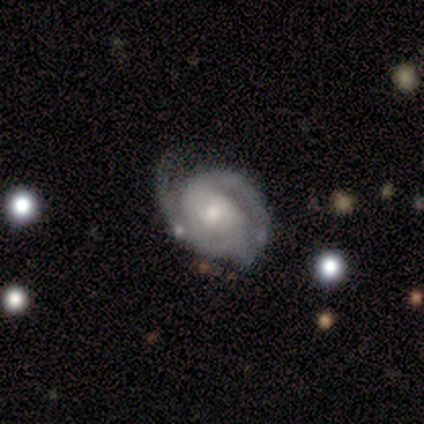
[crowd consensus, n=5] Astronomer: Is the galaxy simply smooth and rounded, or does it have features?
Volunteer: featured or disk — 60% (runner-up: smooth, 40%).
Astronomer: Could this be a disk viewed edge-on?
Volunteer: no — 100%.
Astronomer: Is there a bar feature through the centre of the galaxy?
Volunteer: weak — 67%.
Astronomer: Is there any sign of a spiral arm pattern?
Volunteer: yes — 100%.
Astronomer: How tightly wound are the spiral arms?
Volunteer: tight — 67%.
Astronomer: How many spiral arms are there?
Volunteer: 2 — 100%.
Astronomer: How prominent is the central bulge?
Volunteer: large — 33%, tied with moderate and small at 33%.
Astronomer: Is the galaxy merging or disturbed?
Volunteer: none — 80%.